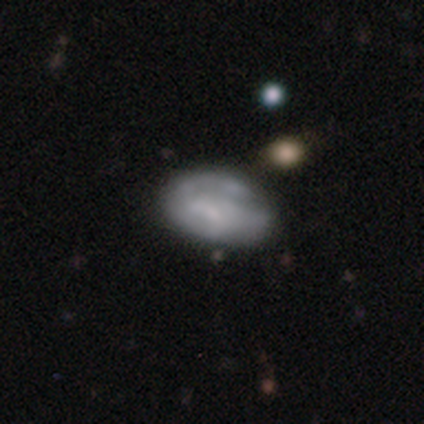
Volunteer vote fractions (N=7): Smooth or featured?
  - smooth: 57% *
  - featured or disk: 43%
  - star or artifact: 0%
How rounded?
  - in between: 75% *
  - round: 25%
  - cigar-shaped: 0%
Merging?
  - minor disturbance: 29% * (tied)
  - major disturbance: 29% * (tied)
  - merger: 29% * (tied)
  - none: 14%